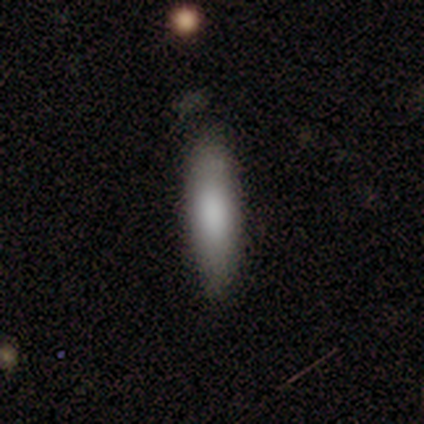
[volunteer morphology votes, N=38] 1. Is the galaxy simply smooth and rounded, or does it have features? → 82% smooth, 16% featured or disk, 3% star or artifact.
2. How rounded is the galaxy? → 84% cigar-shaped, 16% in between, 0% round.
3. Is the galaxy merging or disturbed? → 57% none, 27% minor disturbance, 5% merger, 0% major disturbance.